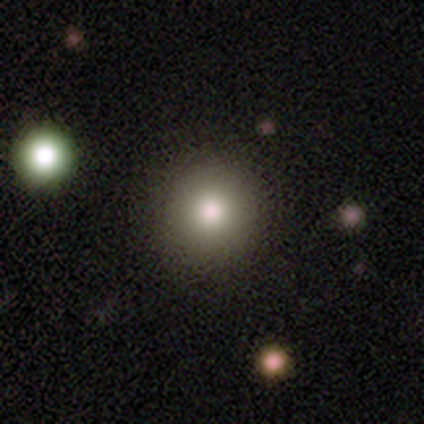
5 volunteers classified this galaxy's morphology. Smooth or featured? 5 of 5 (100%) said smooth. How rounded? 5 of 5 (100%) said round. Merging? 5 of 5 (100%) said none.